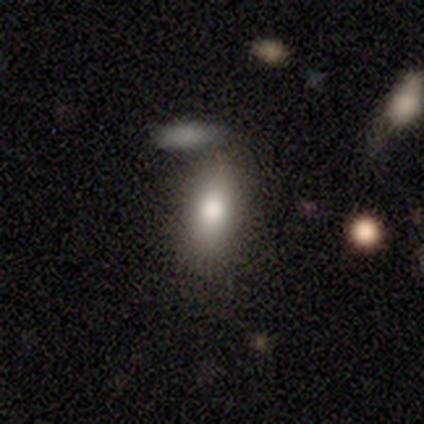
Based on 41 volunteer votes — Q: Smooth or featured?
A: smooth (90%); runner-up: featured or disk (10%)
Q: How rounded?
A: in between (81%); runner-up: cigar-shaped (16%)
Q: Merging?
A: none (66%); runner-up: minor disturbance (27%)